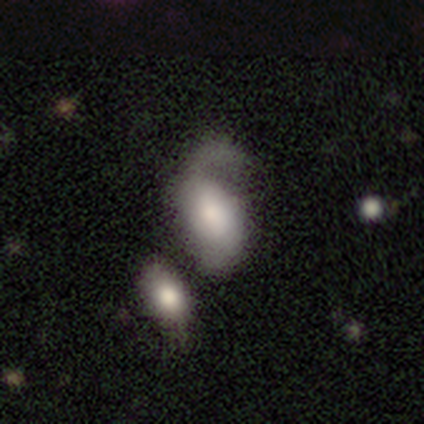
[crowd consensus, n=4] This is possibly a featured or disk galaxy (50%). It is clearly not viewed edge-on (100%). Bar: clearly no (100%). Spiral arm pattern: possibly yes (50%, tied with no). Spiral arm count: clearly 2 (100%). Spiral winding: clearly loose (100%). Central bulge: clearly large (100%). Merging: marginally none (33%, tied with major disturbance and merger).